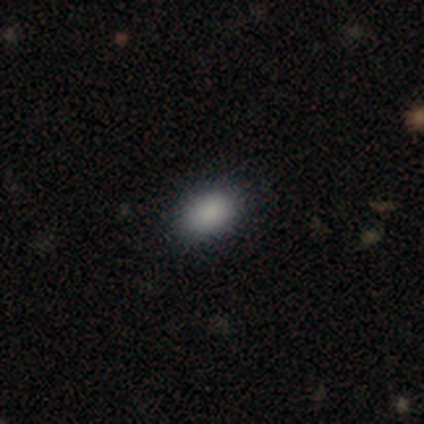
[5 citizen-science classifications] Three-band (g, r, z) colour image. It shows a smooth galaxy with no disk features (100%) that is in between round and cigar-shaped (100%). Merging: none (100%).